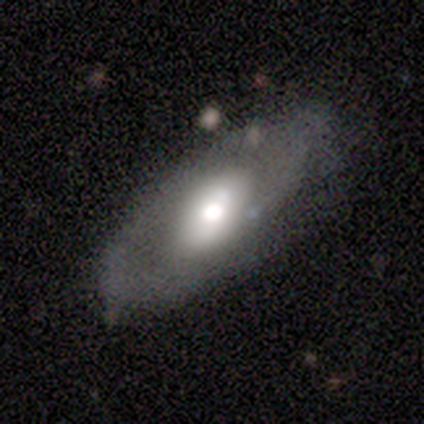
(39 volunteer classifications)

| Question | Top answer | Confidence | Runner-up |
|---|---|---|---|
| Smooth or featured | featured or disk | 51% | smooth (46%) |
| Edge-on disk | no | 80% | yes (20%) |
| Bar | no | 69% | weak (25%) |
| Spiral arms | no | 69% | yes (31%) |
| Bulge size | large | 56% | moderate (38%) |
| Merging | none | 71% | minor disturbance (21%) |